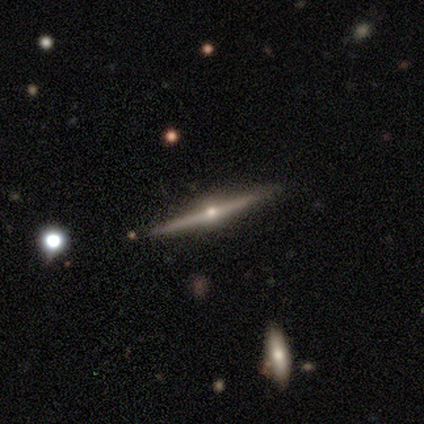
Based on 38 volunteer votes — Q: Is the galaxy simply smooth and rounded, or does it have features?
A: featured or disk — 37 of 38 (97%).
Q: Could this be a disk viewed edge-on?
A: yes — 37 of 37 (100%).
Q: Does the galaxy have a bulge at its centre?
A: rounded — 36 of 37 (97%).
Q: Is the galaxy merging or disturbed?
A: none — 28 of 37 (76%).